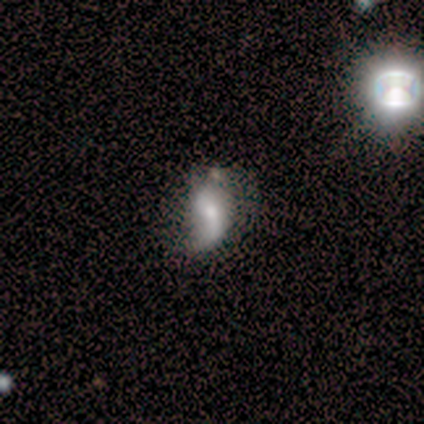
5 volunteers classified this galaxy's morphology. Volunteers were most divided on "smooth or featured": smooth: 60%, featured or disk: 40%, star or artifact: 0%. More confident: how rounded — in between (100%); merging — minor disturbance (80%).